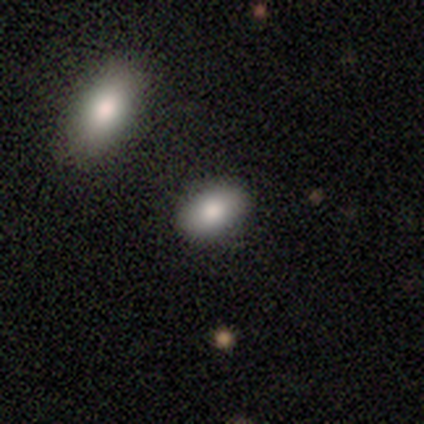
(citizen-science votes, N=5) Q: Smooth or featured?
A: smooth (80%); runner-up: featured or disk (20%)
Q: How rounded?
A: in between (100%)
Q: Merging?
A: none (100%)